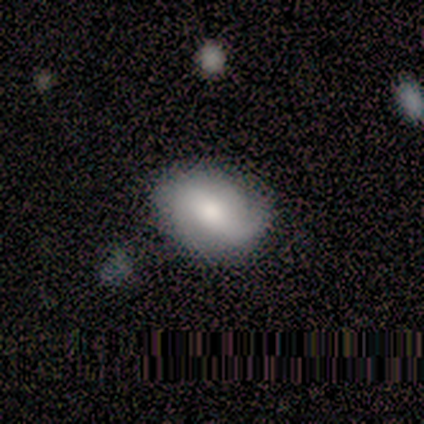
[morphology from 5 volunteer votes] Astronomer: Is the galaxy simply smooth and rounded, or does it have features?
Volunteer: smooth — 60% (runner-up: featured or disk, 40%).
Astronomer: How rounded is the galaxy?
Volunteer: in between — 100%.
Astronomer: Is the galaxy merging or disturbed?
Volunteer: none — 60% (runner-up: minor disturbance, 40%).